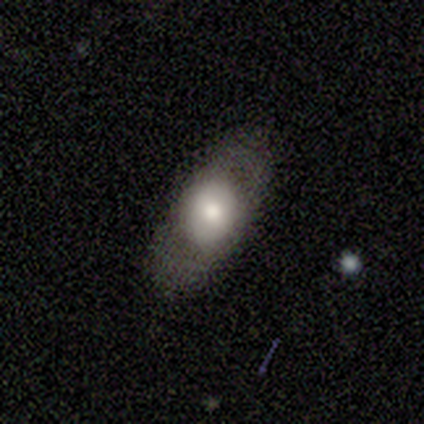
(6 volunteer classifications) Smooth or featured? 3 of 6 (50%) said featured or disk. Edge-on disk? 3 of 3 (100%) said no. Bar? 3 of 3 (100%) said no. Spiral arms? 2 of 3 (67%) said no. Bulge size? 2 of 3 (67%) said moderate. Merging? 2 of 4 (50%) said none.